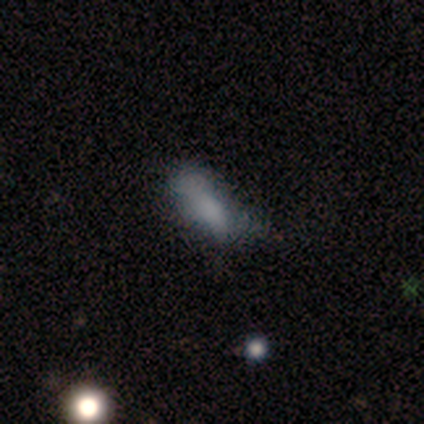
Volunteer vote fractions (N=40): smooth 72%, featured or disk 18%, star or artifact 10%. Down the decision tree: how rounded — in between (76%); merging — major disturbance (36%).